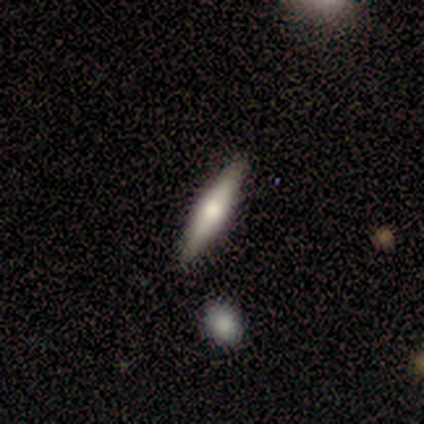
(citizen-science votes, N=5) smooth_or_featured: featured or disk (p=0.60) [alt: smooth p=0.40]
disk_edge_on: yes (p=0.67) [alt: no p=0.33]
edge_on_bulge: rounded (p=1.00)
merging: none (p=0.80) [alt: minor disturbance p=0.20]